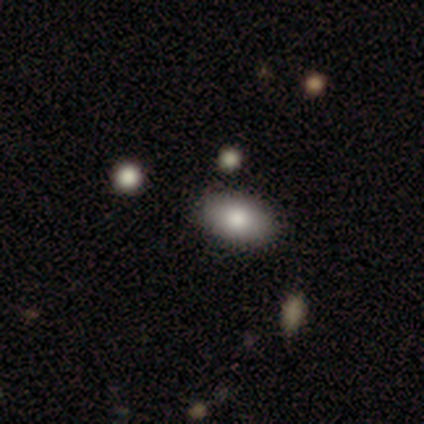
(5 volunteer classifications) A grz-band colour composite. It shows a smooth galaxy with no disk features (100%) that is in between round and cigar-shaped (80%). Merging: none (100%).